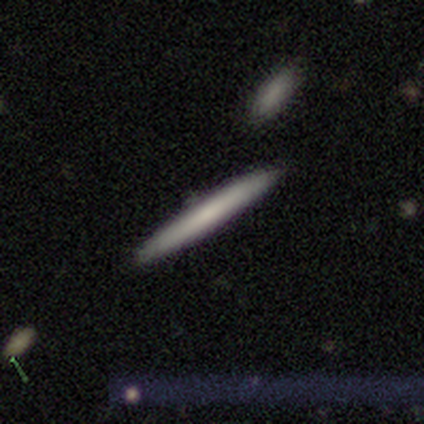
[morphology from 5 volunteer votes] Smooth or featured: smooth — 100%
How rounded: cigar-shaped — 100%
Merging: none — 100%